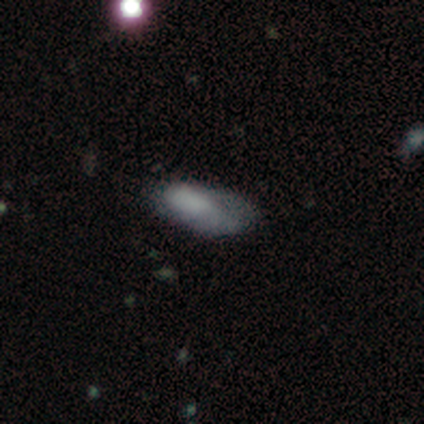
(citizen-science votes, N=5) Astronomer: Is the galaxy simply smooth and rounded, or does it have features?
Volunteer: featured or disk — 60% (runner-up: star or artifact, 40%).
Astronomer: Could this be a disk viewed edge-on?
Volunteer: no — 100%.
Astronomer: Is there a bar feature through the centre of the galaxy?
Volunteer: no — 67%.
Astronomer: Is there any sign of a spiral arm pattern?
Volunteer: no — 67%.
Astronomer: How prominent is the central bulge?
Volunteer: none — 67%.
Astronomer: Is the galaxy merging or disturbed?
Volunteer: minor disturbance — 67%.